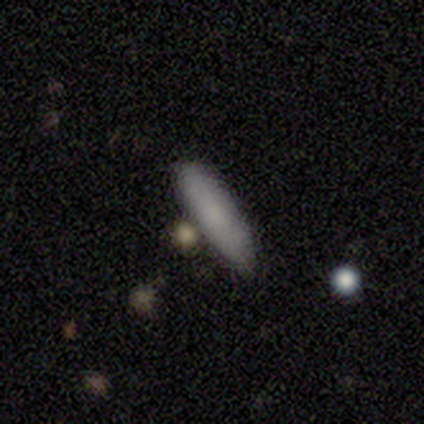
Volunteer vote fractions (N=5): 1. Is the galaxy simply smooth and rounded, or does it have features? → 80% smooth, 20% featured or disk, 0% star or artifact.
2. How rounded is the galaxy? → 75% cigar-shaped, 25% in between, 0% round.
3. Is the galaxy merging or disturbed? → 40% none, 20% minor disturbance, 20% major disturbance, 20% merger.